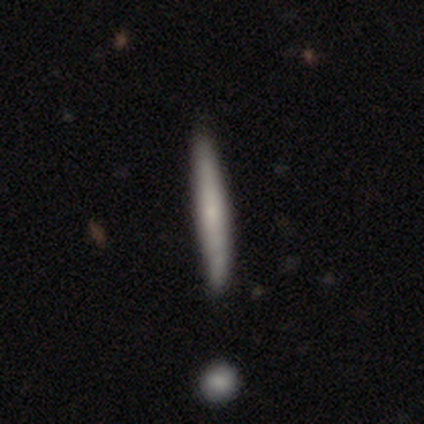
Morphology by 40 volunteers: smooth-or-featured: smooth: 57% | featured or disk: 40% | star or artifact: 2%
  how-rounded: cigar-shaped: 96% | round: 4% | in between: 0%
  merging: none: 67% | minor disturbance: 5% | major disturbance: 3% | merger: 3%